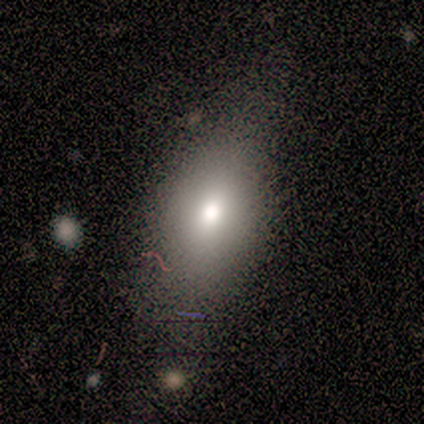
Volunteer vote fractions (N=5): Smooth or featured? smooth (100%)
How rounded? in between (100%)
Merging? none (80%)